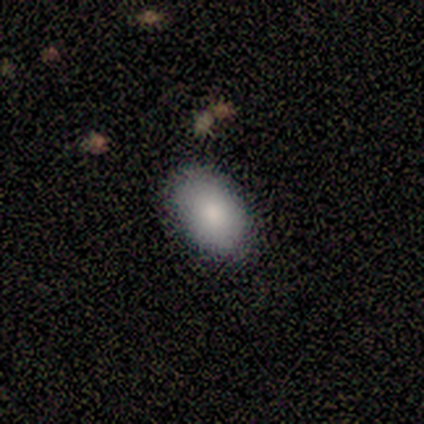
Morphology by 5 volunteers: smooth_or_featured: smooth (p=0.40) [tied with: featured or disk p=0.40]
how_rounded: in between (p=1.00)
merging: none (p=1.00)